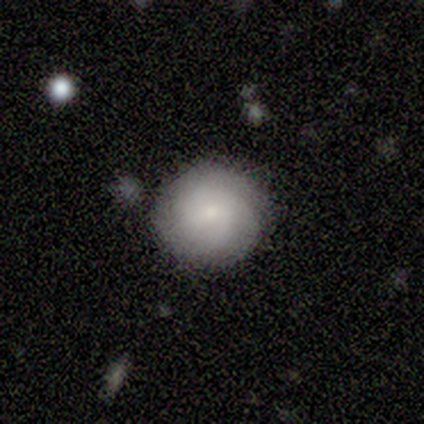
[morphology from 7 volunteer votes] Smooth or featured? 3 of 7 (43%, tied with featured or disk) said smooth. How rounded? 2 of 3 (67%) said round. Merging? 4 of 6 (67%) said none.